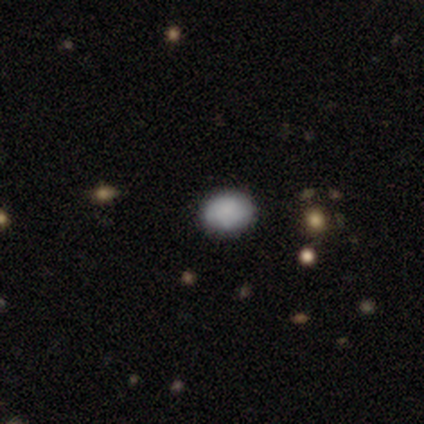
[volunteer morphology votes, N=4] type=smooth (75%); roundness=in between (100%); merging=none (100%).